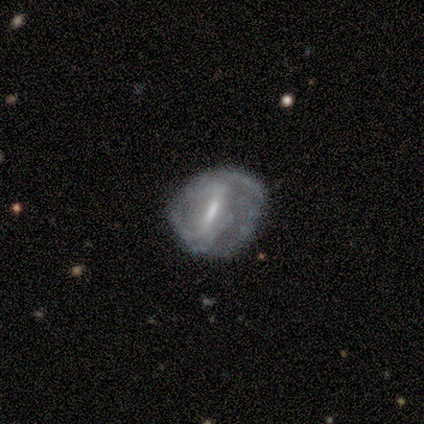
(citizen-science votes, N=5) smooth_or_featured: featured or disk (p=1.00)
disk_edge_on: no (p=1.00)
bar: strong (p=0.60) [alt: weak p=0.40]
has_spiral_arms: yes (p=0.80) [alt: no p=0.20]
spiral_winding: tight (p=0.50) [tied with: loose p=0.50]
spiral_arm_count: can't tell (p=0.50) [alt: 1 p=0.25]
bulge_size: moderate (p=0.40) [tied with: small p=0.40]
merging: none (p=0.80) [alt: minor disturbance p=0.20]